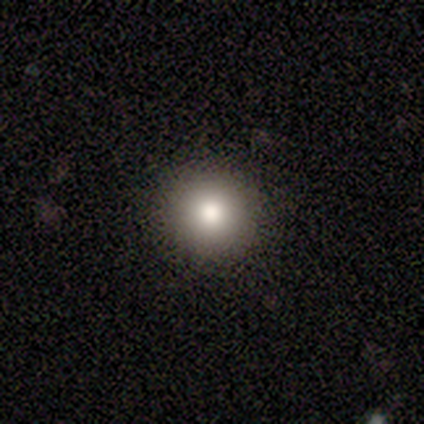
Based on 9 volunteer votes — Smooth or featured? smooth (78%)
How rounded? round (100%)
Merging? none (100%)